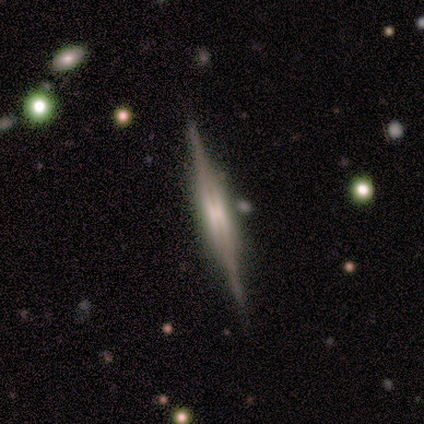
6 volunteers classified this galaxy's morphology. This is clearly a featured or disk galaxy (100%). It is clearly viewed edge-on (83%). Edge-on bulge: clearly boxy (80%). Merging: clearly none (83%).